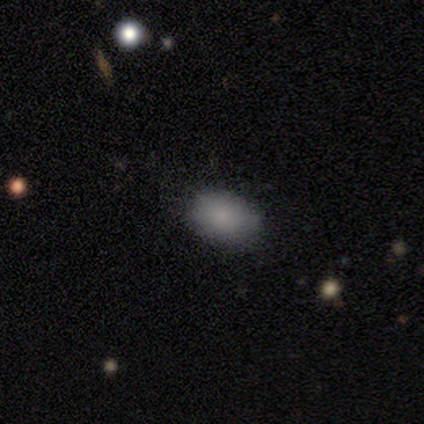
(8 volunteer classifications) A smooth galaxy with no disk features (75%) that is in between round and cigar-shaped (83%). Merging: none (57%).